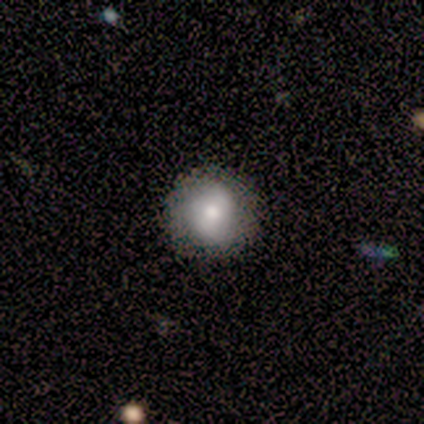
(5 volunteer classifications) This is likely a smooth galaxy (60%). How rounded: clearly round (100%). Merging: clearly none (100%).